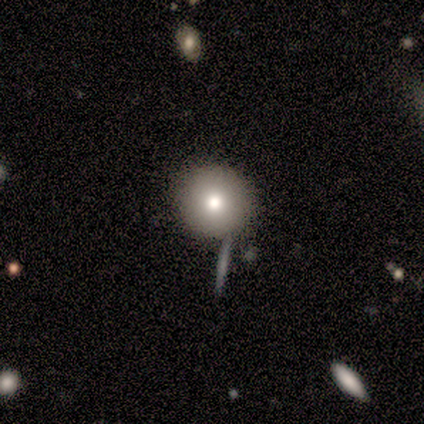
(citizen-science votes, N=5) Volunteers were most divided on "merging": none: 80%, minor disturbance: 20%, major disturbance: 0%, merger: 0%. More confident: smooth or featured — smooth (100%); how rounded — round (100%).